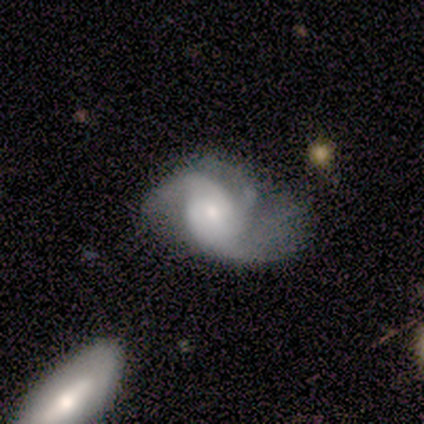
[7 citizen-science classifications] A featured or disk galaxy (71%) with no bar (100%), 2 (40%, tied with can't tell) loose (60%) spiral arms (100%) and a moderate central bulge (60%).

Vote fractions:
- Smooth or featured? featured or disk: 71% / smooth: 14% / star or artifact: 14%
- Edge-on disk? no: 100% / yes: 0%
- Bar? no: 100% / strong: 0% / weak: 0%
- Spiral arms? yes: 100% / no: 0%
- Spiral winding? loose: 60% / tight: 20% / medium: 20%
- Spiral arm count? 2: 40% (tied) / can't tell: 40% (tied) / 3: 20% / 1: 0% / 4: 0% / more than 4: 0%
- Bulge size? moderate: 60% / small: 40% / dominant: 0% / large: 0% / none: 0%
- Merging? minor disturbance: 50% / none: 33% / major disturbance: 17% / merger: 0%